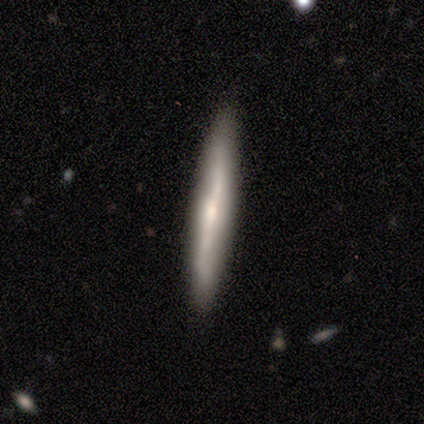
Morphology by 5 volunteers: smooth 40% (tied), star or artifact 40% (tied), featured or disk 20%. Down the decision tree: how rounded — in between (50%, tied with cigar-shaped); merging — none (100%).